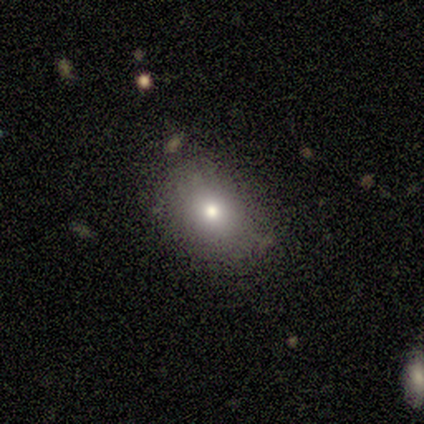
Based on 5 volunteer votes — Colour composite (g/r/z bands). It shows a smooth galaxy with no disk features (100%) that is in between round and cigar-shaped (60%). Merging: none (80%).